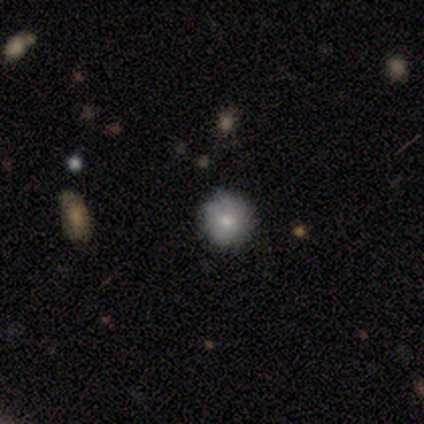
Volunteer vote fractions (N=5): Smooth or featured? smooth (80%)
How rounded? round (100%)
Merging? none (80%)